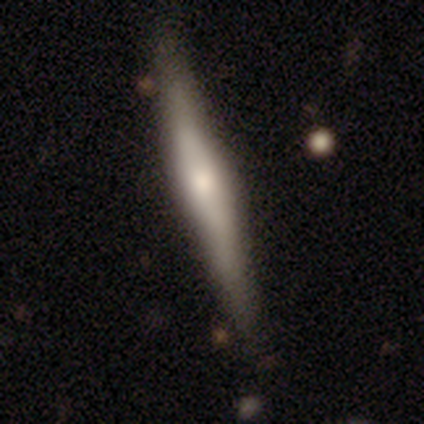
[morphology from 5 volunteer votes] featured or disk 60%, smooth 40%, star or artifact 0%. Down the decision tree: edge-on disk — yes (100%); edge-on bulge — rounded (67%); merging — none (80%).